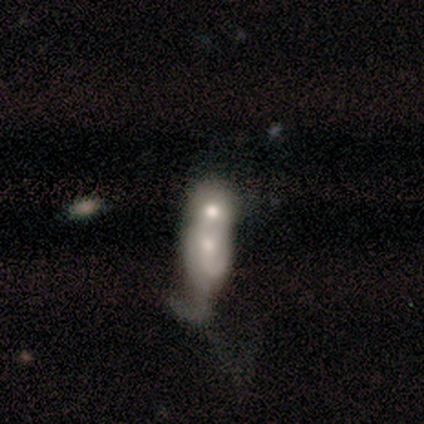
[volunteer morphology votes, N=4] Smooth or featured?
  - smooth: 50% * (tied)
  - featured or disk: 50% * (tied)
  - star or artifact: 0%
How rounded?
  - round: 50% * (tied)
  - cigar-shaped: 50% * (tied)
  - in between: 0%
Merging?
  - merger: 100% *
  - none: 0%
  - minor disturbance: 0%
  - major disturbance: 0%